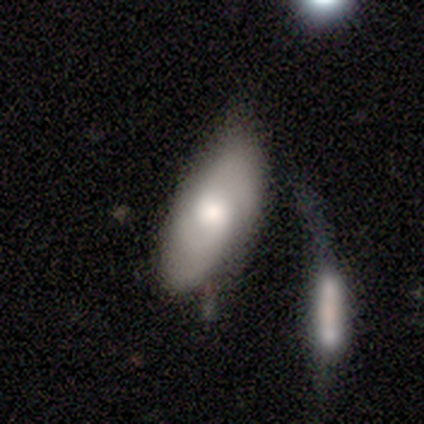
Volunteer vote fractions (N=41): smooth-or-featured: smooth: 54% | featured or disk: 37% | star or artifact: 10%
  how-rounded: in between: 100% | round: 0% | cigar-shaped: 0%
  merging: minor disturbance: 38% | none: 30% | merger: 24% | major disturbance: 8%